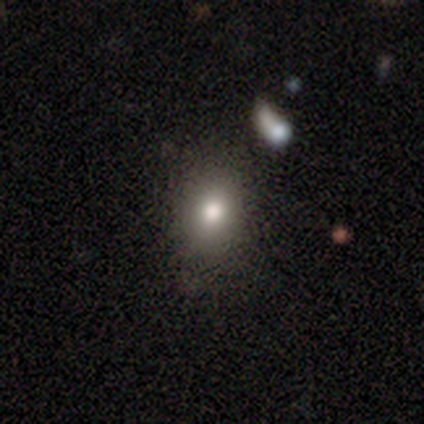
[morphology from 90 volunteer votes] Smooth or featured? 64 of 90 (71%) said smooth. How rounded? 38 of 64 (59%) said round. Merging? 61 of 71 (86%) said none.